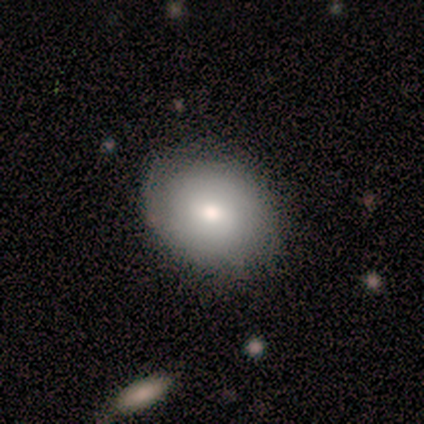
This is likely a smooth galaxy (60%). How rounded: likely round (67%). Merging: likely none (60%).